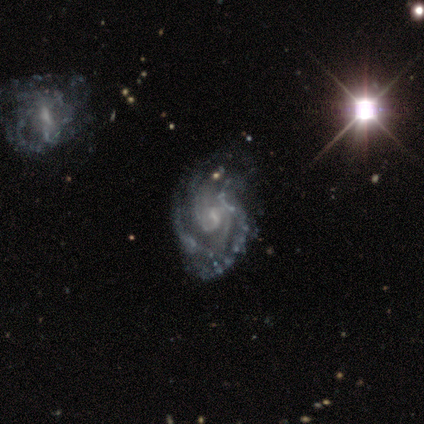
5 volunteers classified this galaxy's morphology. Smooth or featured: featured or disk — 80% (star or artifact — 20%)
Edge-on disk: no — 100%
Bar: weak — 100%
Spiral arms: yes — 100%
Spiral winding: medium — 50% (tight — 25%)
Spiral arm count: 2 — 50% (4 — 25%)
Bulge size: none — 50% (moderate — 25%)
Merging: none — 25% (tied with minor disturbance — 25%; major disturbance — 25%; merger — 25%)